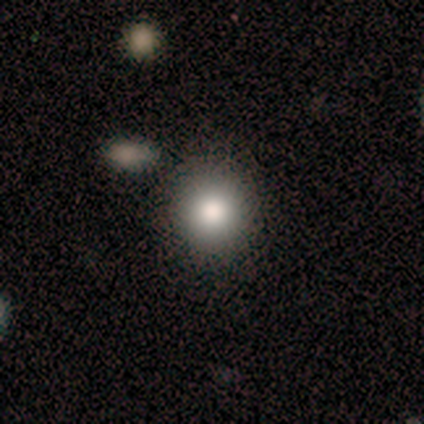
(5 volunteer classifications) Smooth or featured? smooth (80%)
How rounded? round (75%)
Merging? none (75%)